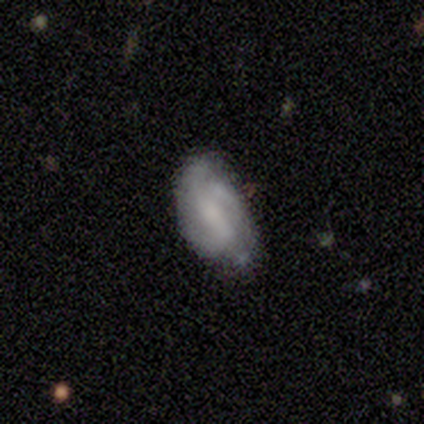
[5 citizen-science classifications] smooth_or_featured: featured or disk (p=0.60) [alt: smooth p=0.40]
disk_edge_on: no (p=1.00)
bar: weak (p=0.67) [alt: no p=0.33]
has_spiral_arms: yes (p=0.67) [alt: no p=0.33]
spiral_winding: tight (p=0.50) [tied with: loose p=0.50]
spiral_arm_count: 2 (p=0.50) [tied with: can't tell p=0.50]
bulge_size: none (p=1.00)
merging: none (p=0.80) [alt: major disturbance p=0.20]